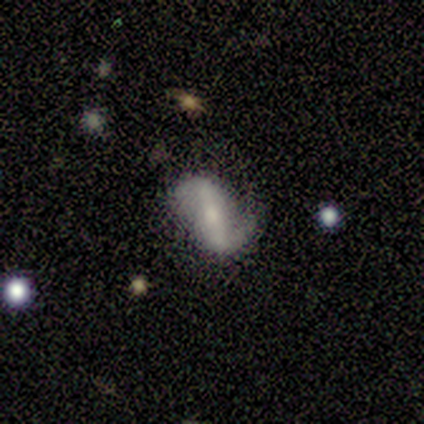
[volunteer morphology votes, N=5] A featured or disk galaxy (80%) with a strong bar (75%), 2 (100%) medium (50%) spiral arms (100%) and a small central bulge (75%). Merging: none (80%).